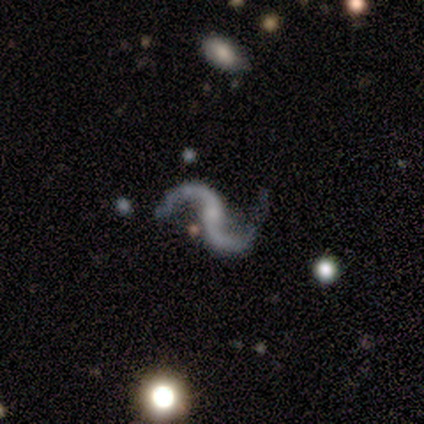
Smooth or featured? featured or disk (95%)
Edge-on disk? no (100%)
Bar? no (55%)
Spiral arms? yes (97%)
Spiral winding? loose (84%)
Spiral arm count? 2 (97%)
Bulge size? none (47%)
Merging? none (47%)